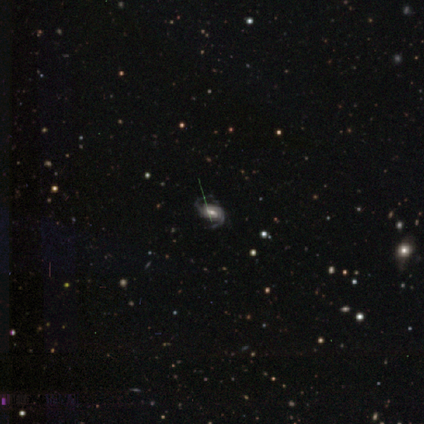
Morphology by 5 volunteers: Smooth or featured? featured or disk (100%)
Edge-on disk? no (100%)
Bar? weak (60%)
Spiral arms? yes (100%)
Spiral winding? medium (60%)
Spiral arm count? 2 (100%)
Bulge size? moderate (60%)
Merging? none (80%)